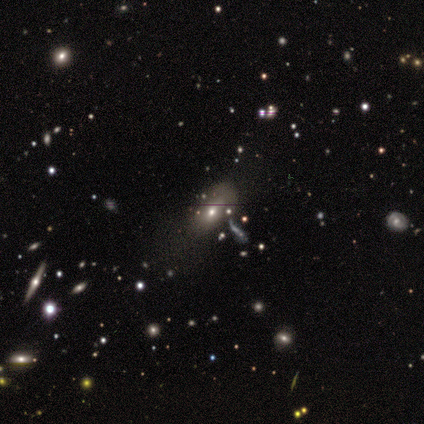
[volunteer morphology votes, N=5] This is clearly a smooth galaxy (80%). How rounded: clearly in between (100%). Merging: marginally none (40%).